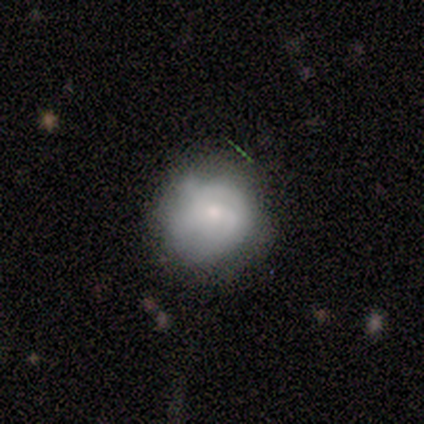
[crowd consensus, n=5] This is likely a smooth galaxy (60%). How rounded: clearly round (100%). Merging: marginally none (40%, tied with minor disturbance).